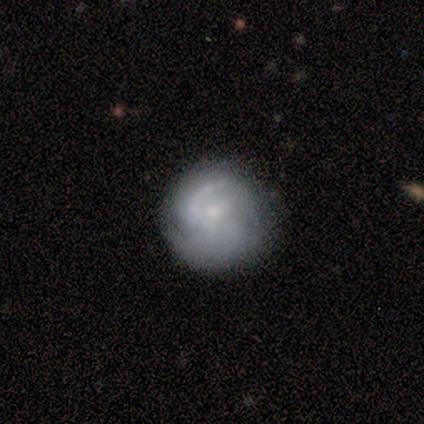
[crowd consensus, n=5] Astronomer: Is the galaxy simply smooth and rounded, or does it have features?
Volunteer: featured or disk — 100%.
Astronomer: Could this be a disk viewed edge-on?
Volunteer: no — 100%.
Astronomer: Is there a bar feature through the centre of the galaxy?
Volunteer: no — 60%.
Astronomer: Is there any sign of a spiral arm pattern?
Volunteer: yes — 100%.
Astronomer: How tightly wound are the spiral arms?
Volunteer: tight — 40%, tied with medium at 40%.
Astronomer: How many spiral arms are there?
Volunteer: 3 — 40% (runner-up: 1, 20%).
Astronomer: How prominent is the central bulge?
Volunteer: small — 40% (runner-up: large, 20%).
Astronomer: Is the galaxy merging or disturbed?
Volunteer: none — 80%.